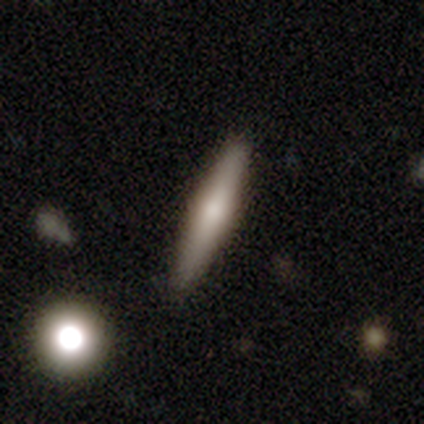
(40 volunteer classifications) Q: Smooth or featured?
A: featured or disk (50%); runner-up: smooth (45%)
Q: Edge-on disk?
A: yes (95%); runner-up: no (5%)
Q: Edge-on bulge?
A: rounded (68%); runner-up: none (21%)
Q: Merging?
A: none (89%); runner-up: minor disturbance (5%)